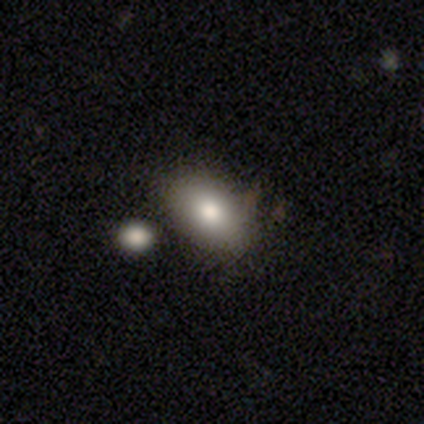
This appears to be a smooth galaxy with no disk features (75%) that is in between round and cigar-shaped (92%). Merging: none (67%).